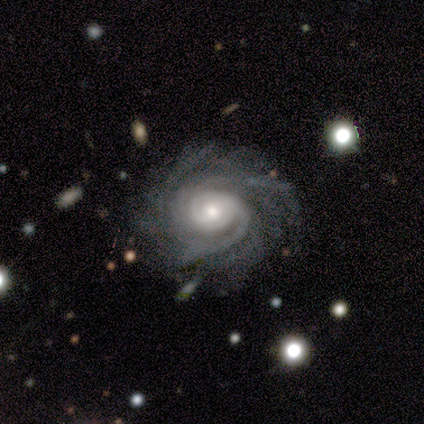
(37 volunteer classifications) Smooth or featured?
  - featured or disk: 97% *
  - smooth: 3%
  - star or artifact: 0%
Edge-on disk?
  - no: 100% *
  - yes: 0%
Bar?
  - no: 58% *
  - weak: 36%
  - strong: 6%
Spiral arms?
  - yes: 100% *
  - no: 0%
Spiral winding?
  - tight: 81% *
  - medium: 14%
  - loose: 6%
Spiral arm count?
  - more than 4: 44% *
  - 3: 19%
  - can't tell: 19%
  - 4: 8%
  - 2: 6%
  - 1: 3%
Bulge size?
  - moderate: 50% *
  - small: 47%
  - large: 3%
  - dominant: 0%
  - none: 0%
Merging?
  - none: 76% *
  - minor disturbance: 11%
  - merger: 11%
  - major disturbance: 3%